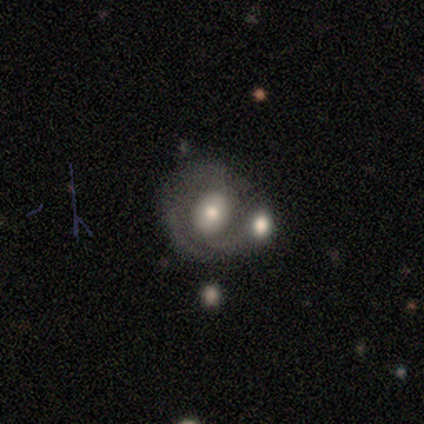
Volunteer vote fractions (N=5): A featured or disk galaxy (60%) with no bar (100%), no spiral arms (67%) and a moderate central bulge (100%). Merging: none (60%).